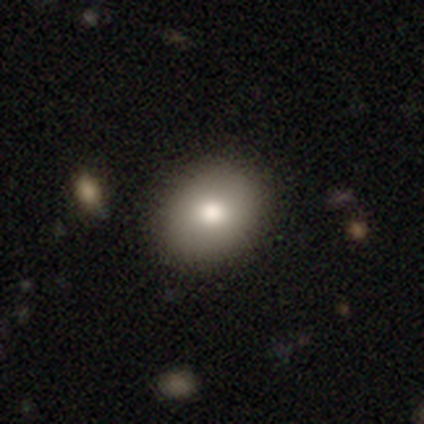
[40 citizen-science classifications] Smooth or featured? smooth (85%)
How rounded? round (68%)
Merging? none (84%)